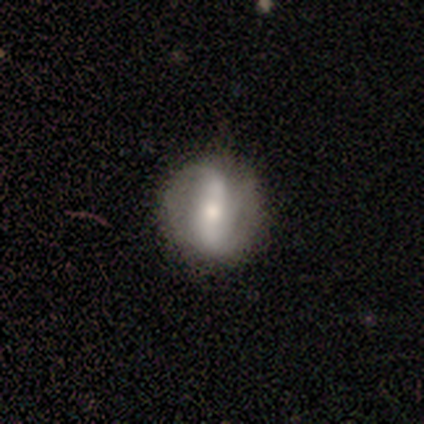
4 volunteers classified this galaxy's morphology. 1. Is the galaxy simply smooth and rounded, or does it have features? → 50% smooth (tied), 50% featured or disk (tied), 0% star or artifact.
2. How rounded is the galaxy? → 50% round (tied), 50% cigar-shaped (tied), 0% in between.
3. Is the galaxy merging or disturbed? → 75% none, 25% minor disturbance, 0% major disturbance, 0% merger.